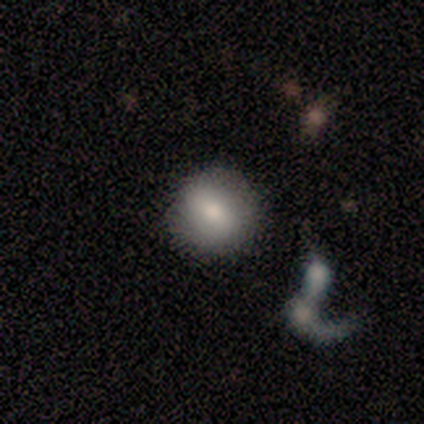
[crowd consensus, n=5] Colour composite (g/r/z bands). It shows a smooth galaxy with no disk features (60%) that is round (100%). Merging: none (100%).